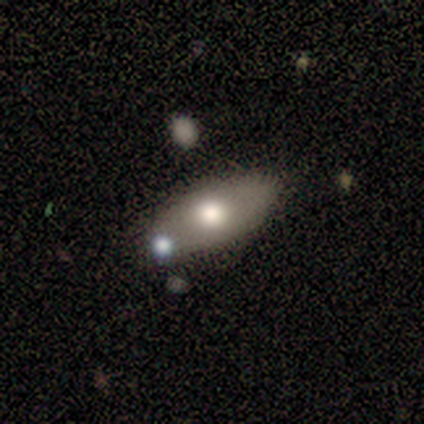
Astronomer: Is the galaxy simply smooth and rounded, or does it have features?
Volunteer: smooth — 75%.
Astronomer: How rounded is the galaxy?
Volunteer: in between — 83%.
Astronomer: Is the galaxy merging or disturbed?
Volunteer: none — 50%.